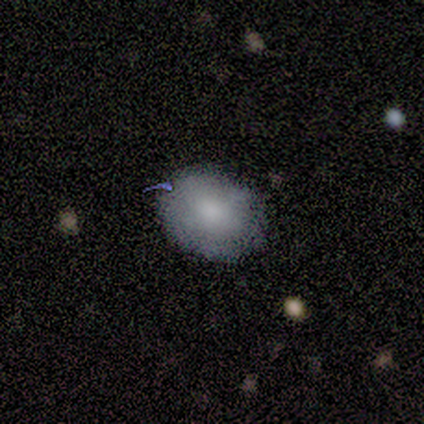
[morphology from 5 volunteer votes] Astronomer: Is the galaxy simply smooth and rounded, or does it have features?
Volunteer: smooth — 100%.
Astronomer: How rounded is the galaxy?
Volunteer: round — 60% (runner-up: in between, 40%).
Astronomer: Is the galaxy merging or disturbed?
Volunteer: none — 100%.